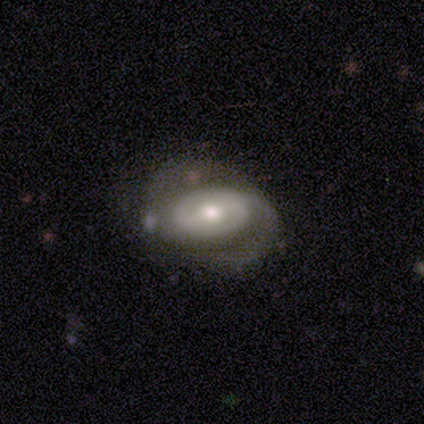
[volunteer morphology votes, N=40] Smooth or featured?
  - featured or disk: 85% *
  - smooth: 12%
  - star or artifact: 2%
Edge-on disk?
  - no: 97% *
  - yes: 3%
Bar?
  - no: 45% *
  - weak: 30%
  - strong: 24%
Spiral arms?
  - yes: 82% *
  - no: 18%
Spiral winding?
  - tight: 44% *
  - loose: 30%
  - medium: 26%
Spiral arm count?
  - 2: 52% *
  - can't tell: 30%
  - 1: 11%
  - 3: 7%
  - 4: 0%
  - more than 4: 0%
Bulge size?
  - moderate: 88% *
  - small: 9%
  - large: 3%
  - dominant: 0%
  - none: 0%
Merging?
  - none: 56% *
  - minor disturbance: 21%
  - major disturbance: 21%
  - merger: 3%